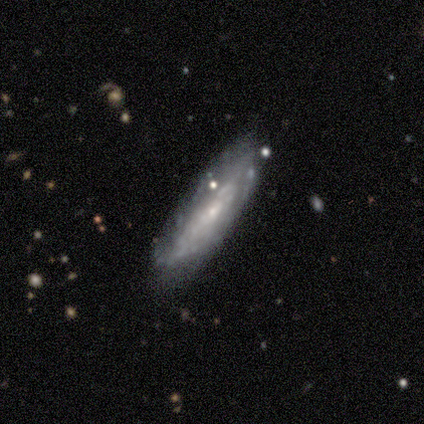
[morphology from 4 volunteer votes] Smooth or featured? 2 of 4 (50%) said featured or disk. Edge-on disk? 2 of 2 (100%) said yes. Edge-on bulge? 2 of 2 (100%) said none. Merging? 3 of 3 (100%) said none.